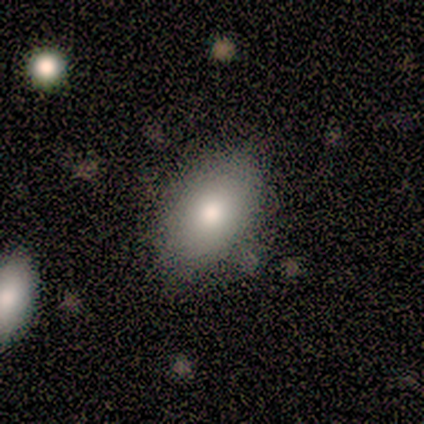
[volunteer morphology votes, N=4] Q: Smooth or featured?
A: smooth (100%)
Q: How rounded?
A: in between (100%)
Q: Merging?
A: none (75%); runner-up: minor disturbance (25%)